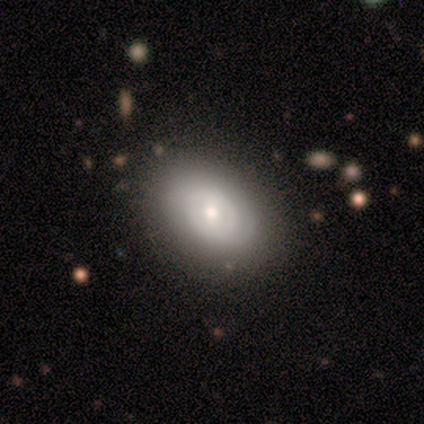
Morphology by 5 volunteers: Smooth or featured? 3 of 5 (60%) said featured or disk. Edge-on disk? 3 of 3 (100%) said no. Bar? 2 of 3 (67%) said weak. Spiral arms? 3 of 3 (100%) said yes. Spiral winding? 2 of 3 (67%) said tight. Spiral arm count? 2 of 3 (67%) said 2. Bulge size? 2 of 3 (67%) said moderate. Merging? 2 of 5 (40%, tied with minor disturbance) said none.